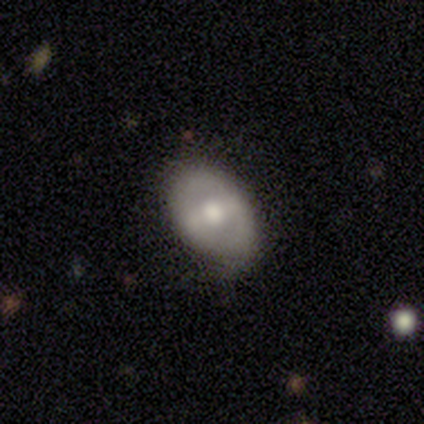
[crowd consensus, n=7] A smooth galaxy with no disk features (57%) that is in between round and cigar-shaped (75%).

Vote fractions:
- Smooth or featured? smooth: 57% / featured or disk: 43% / star or artifact: 0%
- How rounded? in between: 75% / round: 25% / cigar-shaped: 0%
- Merging? none: 100% / minor disturbance: 0% / major disturbance: 0% / merger: 0%